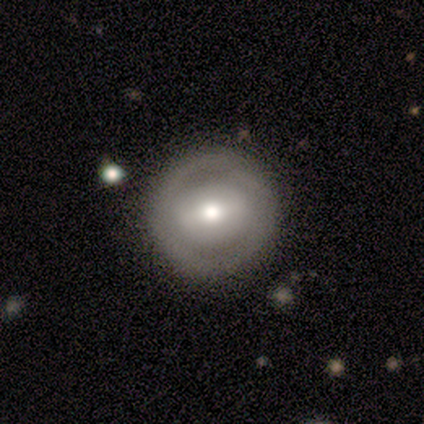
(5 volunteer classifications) This appears to be a smooth galaxy with no disk features (40%, tied with star or artifact) that is round (50%, tied with in between). Merging: none (67%).